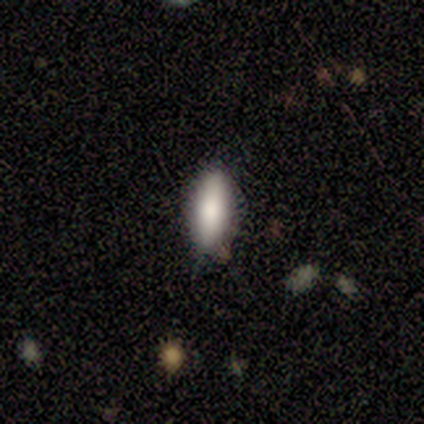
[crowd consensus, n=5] Smooth or featured?
  - smooth: 100% *
  - featured or disk: 0%
  - star or artifact: 0%
How rounded?
  - cigar-shaped: 60% *
  - in between: 40%
  - round: 0%
Merging?
  - none: 60% *
  - minor disturbance: 20%
  - major disturbance: 20%
  - merger: 0%